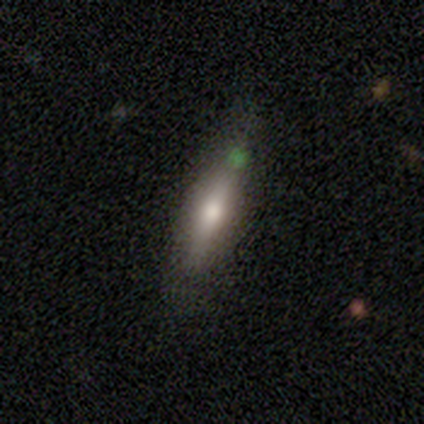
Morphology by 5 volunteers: Volunteers were most divided on "smooth or featured": smooth: 60%, featured or disk: 40%, star or artifact: 0%. More confident: merging — none (100%); how rounded — cigar-shaped (67%).